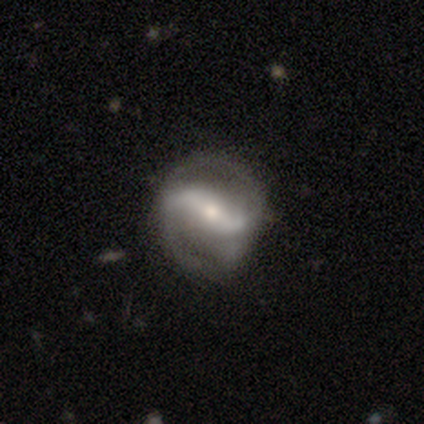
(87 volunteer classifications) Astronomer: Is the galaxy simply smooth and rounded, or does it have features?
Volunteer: featured or disk — 91%.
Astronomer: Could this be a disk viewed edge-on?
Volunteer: no — 96%.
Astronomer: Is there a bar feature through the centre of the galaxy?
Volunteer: strong — 55%.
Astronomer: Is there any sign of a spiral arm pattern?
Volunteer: yes — 92%.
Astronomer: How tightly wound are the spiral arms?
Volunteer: loose — 46% (runner-up: medium, 37%).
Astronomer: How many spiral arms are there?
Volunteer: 2 — 87%.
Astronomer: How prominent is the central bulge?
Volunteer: moderate — 43%, tied with small at 43%.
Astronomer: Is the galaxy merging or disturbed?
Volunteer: none — 66%.